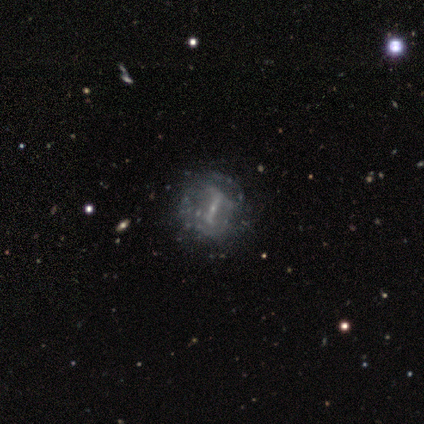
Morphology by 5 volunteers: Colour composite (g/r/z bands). It shows a featured or disk galaxy (60%) with a strong bar (67%), no spiral arms (67%) and a small central bulge (100%). Merging: none (100%).